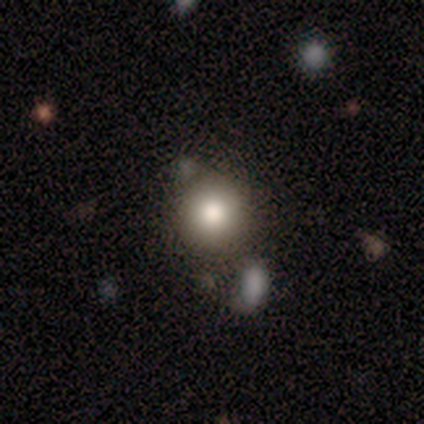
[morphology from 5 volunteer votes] Overall: smooth (80%). How rounded: round (100%). Merging: none (100%).